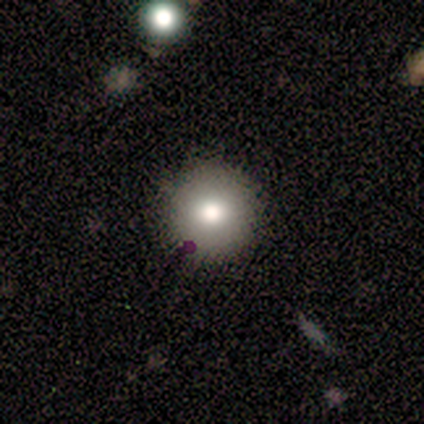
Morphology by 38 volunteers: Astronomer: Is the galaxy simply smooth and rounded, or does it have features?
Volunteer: smooth — 68%.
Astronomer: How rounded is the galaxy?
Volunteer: round — 92%.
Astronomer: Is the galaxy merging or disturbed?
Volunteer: none — 56%.